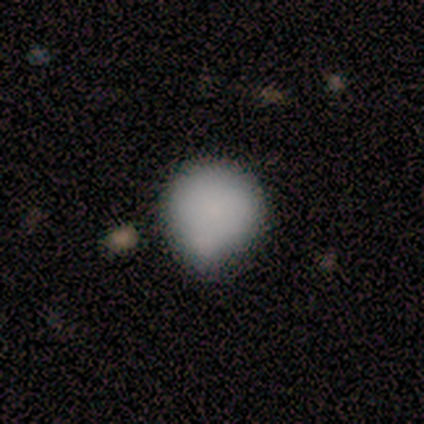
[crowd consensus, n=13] Smooth or featured? smooth (69%)
How rounded? round (56%)
Merging? minor disturbance (69%)